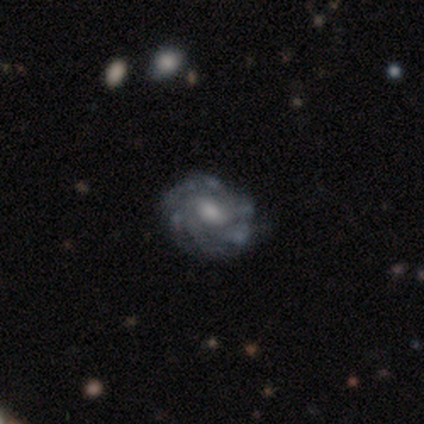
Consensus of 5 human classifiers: This is clearly a featured or disk galaxy (100%). It is clearly not viewed edge-on (80%). Bar: likely weak (75%). Spiral arm pattern: clearly yes (100%). Spiral arm count: possibly can't tell (50%). Spiral winding: possibly tight (50%, tied with medium). Central bulge: possibly small (50%). Merging: clearly none (80%).